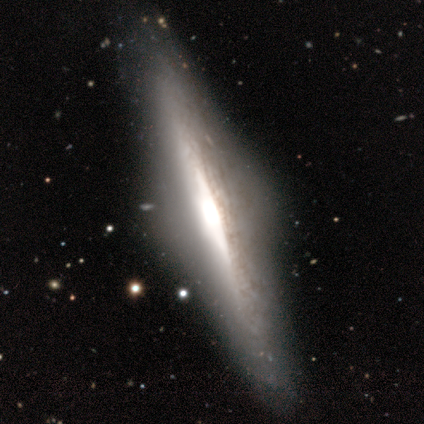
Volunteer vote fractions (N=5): A featured or disk galaxy (100%) viewed edge-on (100%) with a rounded central bulge (60%). Merging: none (100%).